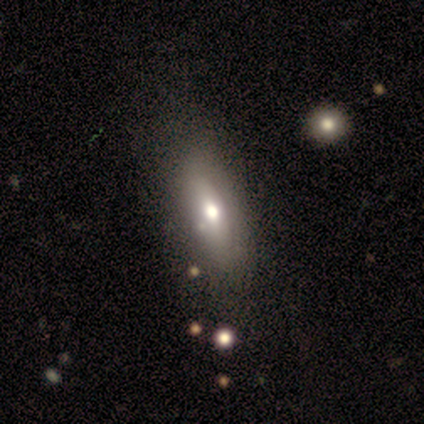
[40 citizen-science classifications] Smooth or featured? 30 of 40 (75%) said smooth. How rounded? 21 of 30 (70%) said in between. Merging? 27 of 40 (68%) said none.